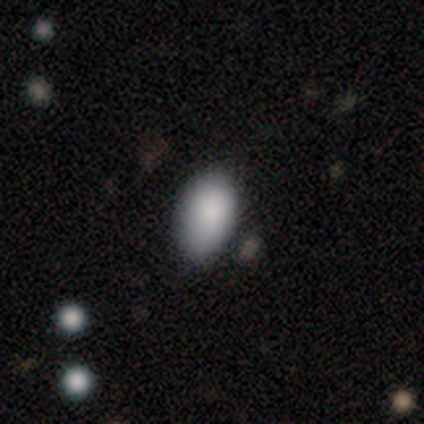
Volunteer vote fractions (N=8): smooth_or_featured: smooth (p=0.88) [alt: star or artifact p=0.12]
how_rounded: in between (p=1.00)
merging: none (p=1.00)